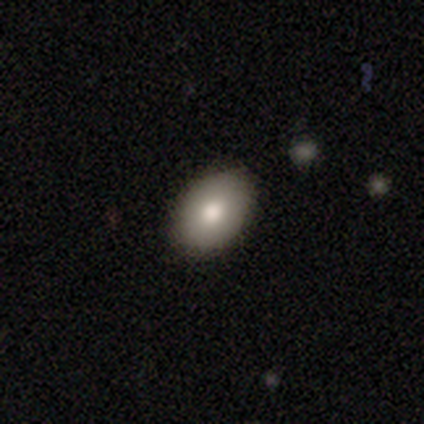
smooth 75%, star or artifact 25%, featured or disk 0%. Down the decision tree: how rounded — in between (100%); merging — none (67%).